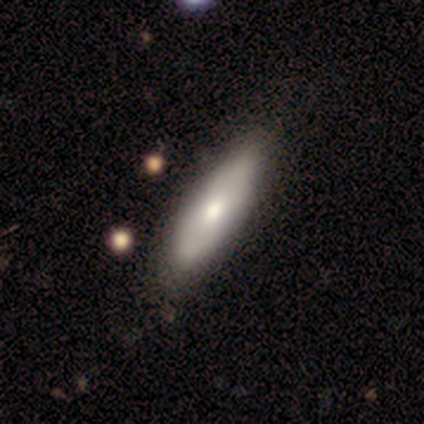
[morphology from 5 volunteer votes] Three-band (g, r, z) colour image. It shows a smooth galaxy with no disk features (80%) that is in between round and cigar-shaped (75%). Merging: none (100%).